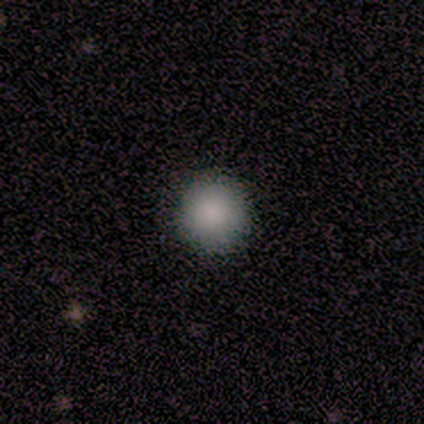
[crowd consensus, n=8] Q: Smooth or featured?
A: smooth (100%)
Q: How rounded?
A: round (100%)
Q: Merging?
A: none (100%)